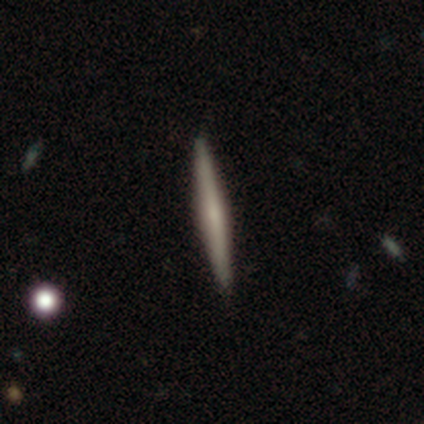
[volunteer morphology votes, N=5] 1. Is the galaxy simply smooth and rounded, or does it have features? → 60% smooth, 40% featured or disk, 0% star or artifact.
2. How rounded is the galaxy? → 100% cigar-shaped, 0% round, 0% in between.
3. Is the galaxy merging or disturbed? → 100% none, 0% minor disturbance, 0% major disturbance, 0% merger.